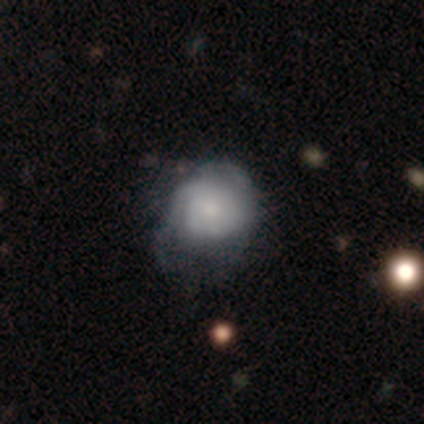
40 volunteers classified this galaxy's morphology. Volunteers were most divided on "spiral arm count" (2-way tie): 2: 38%, can't tell: 38%, 1: 8%, 3: 8%, more than 4: 8%, 4: 0%. Remaining: edge-on disk — no (100%); bar — no (91%); spiral arms — yes (59%); bulge size — moderate (59%); smooth or featured — featured or disk (55%); spiral winding — tight (46%); merging — minor disturbance (44%).